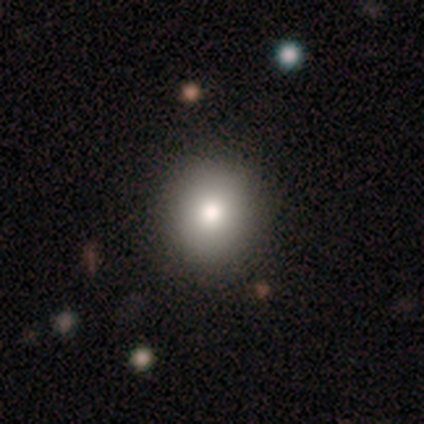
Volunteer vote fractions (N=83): Overall: smooth (81%). How rounded: round (81%). Merging: none (91%).